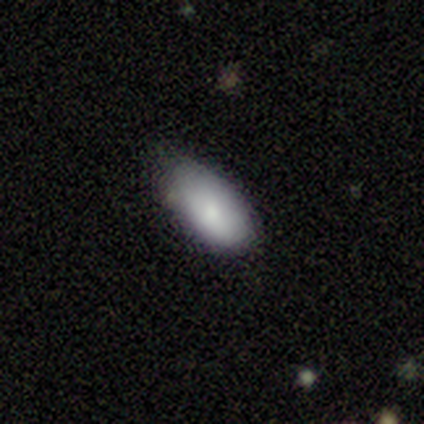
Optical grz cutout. It shows a smooth galaxy with no disk features (100%) that is in between round and cigar-shaped (100%). Merging: none (80%).